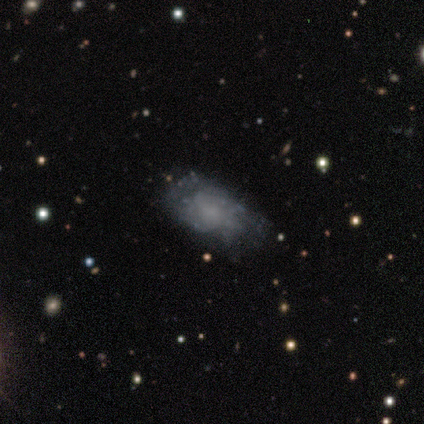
Q: Smooth or featured?
A: featured or disk (66%); runner-up: smooth (29%)
Q: Edge-on disk?
A: no (96%); runner-up: yes (4%)
Q: Bar?
A: no (88%); runner-up: weak (12%)
Q: Spiral arms?
A: yes (62%); runner-up: no (38%)
Q: Spiral winding?
A: medium (47%); runner-up: tight (33%)
Q: Spiral arm count?
A: can't tell (80%); runner-up: 2 (20%)
Q: Bulge size?
A: none (71%); runner-up: small (17%)
Q: Merging?
A: none (58%); runner-up: minor disturbance (33%)